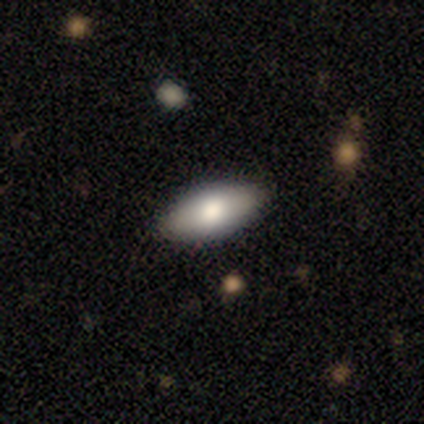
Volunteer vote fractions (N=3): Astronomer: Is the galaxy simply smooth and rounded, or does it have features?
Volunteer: smooth — 100%.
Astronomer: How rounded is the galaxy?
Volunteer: in between — 100%.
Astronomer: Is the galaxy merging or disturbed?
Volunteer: none — 100%.